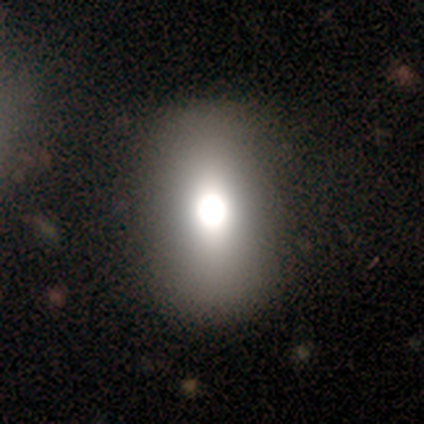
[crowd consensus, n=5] Smooth or featured?
  - smooth: 80% *
  - featured or disk: 20%
  - star or artifact: 0%
How rounded?
  - in between: 75% *
  - round: 25%
  - cigar-shaped: 0%
Merging?
  - none: 100% *
  - minor disturbance: 0%
  - major disturbance: 0%
  - merger: 0%